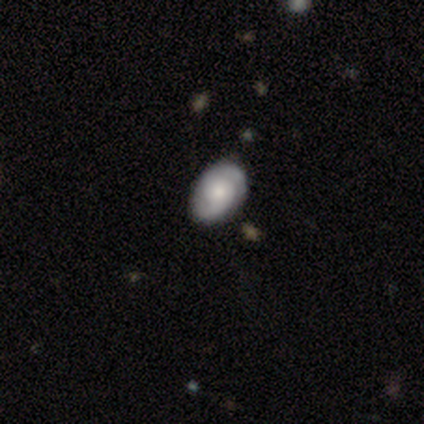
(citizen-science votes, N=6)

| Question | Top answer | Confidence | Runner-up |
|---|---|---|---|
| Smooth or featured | smooth | 50% | tied: featured or disk (50%) |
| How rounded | in between | 67% | round (33%) |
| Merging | none | 100% | — |